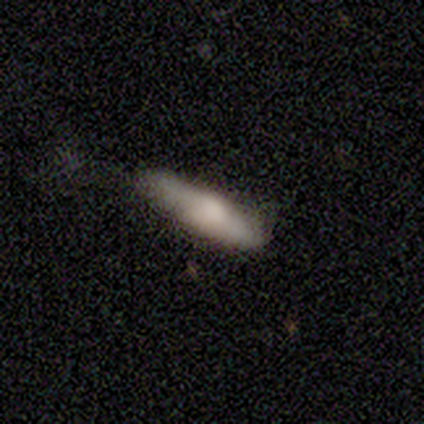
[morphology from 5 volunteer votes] type=smooth (60%); roundness=cigar-shaped (67%); merging=none (50%).